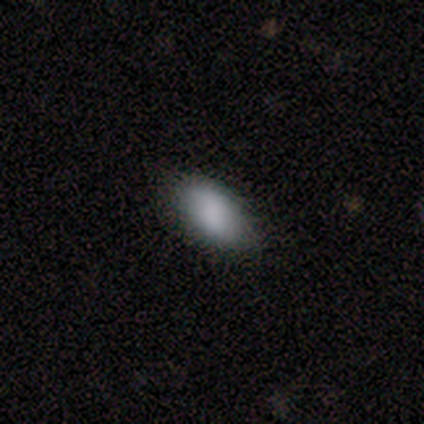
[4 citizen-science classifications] Smooth or featured?
  - smooth: 100% *
  - featured or disk: 0%
  - star or artifact: 0%
How rounded?
  - in between: 75% *
  - round: 25%
  - cigar-shaped: 0%
Merging?
  - none: 75% *
  - minor disturbance: 25%
  - major disturbance: 0%
  - merger: 0%